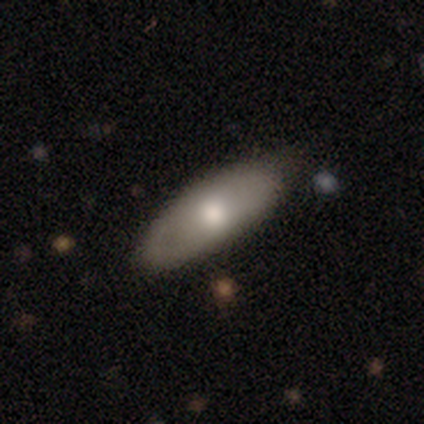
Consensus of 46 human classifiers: A smooth galaxy with no disk features (74%) that is in between round and cigar-shaped (76%).

Vote fractions:
- Smooth or featured? smooth: 74% / featured or disk: 24% / star or artifact: 2%
- How rounded? in between: 76% / cigar-shaped: 24% / round: 0%
- Merging? none: 82% / minor disturbance: 13% / major disturbance: 4% / merger: 0%